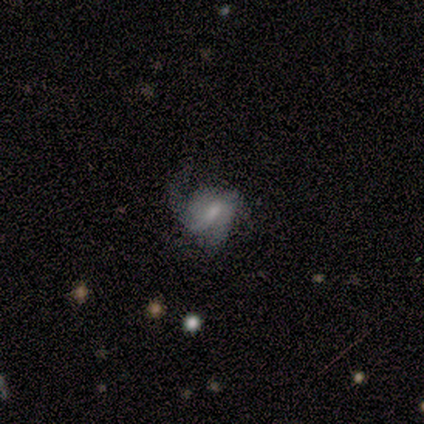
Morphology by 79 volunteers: Smooth or featured: featured or disk — 73% (smooth — 19%)
Edge-on disk: no — 100%
Bar: weak — 59% (no — 29%)
Spiral arms: yes — 64% (no — 36%)
Spiral winding: medium — 43% (loose — 38%)
Spiral arm count: 2 — 46% (can't tell — 27%)
Bulge size: small — 41% (moderate — 33%)
Merging: major disturbance — 45% (minor disturbance — 34%)